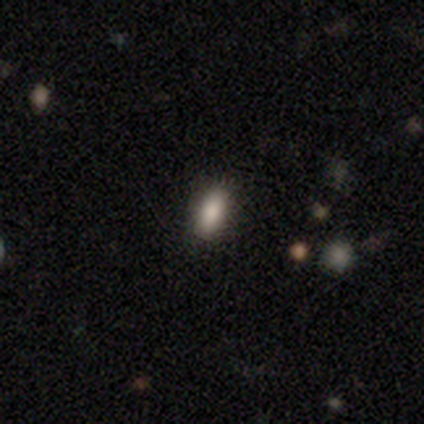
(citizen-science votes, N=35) This appears to be a smooth galaxy with no disk features (91%) that is in between round and cigar-shaped (84%). Merging: none (100%).